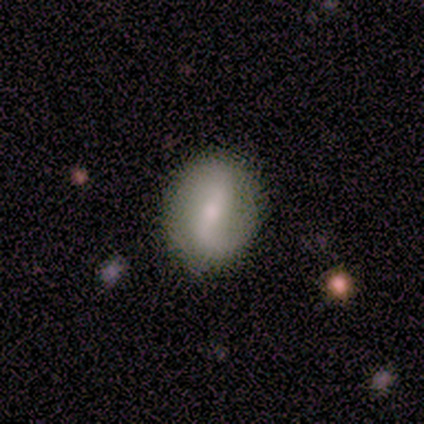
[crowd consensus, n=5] A smooth galaxy with no disk features (60%) that is in between round and cigar-shaped (67%).

Vote fractions:
- Smooth or featured? smooth: 60% / featured or disk: 40% / star or artifact: 0%
- How rounded? in between: 67% / round: 33% / cigar-shaped: 0%
- Merging? none: 100% / minor disturbance: 0% / major disturbance: 0% / merger: 0%